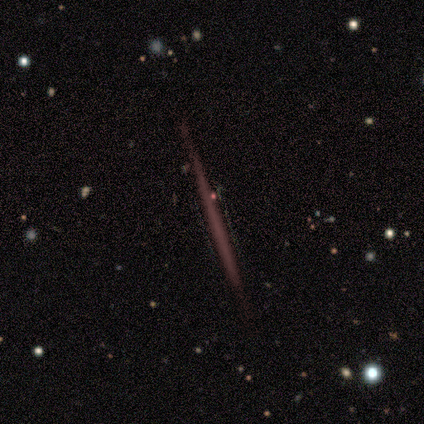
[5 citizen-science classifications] A star or artifact, not a galaxy (80%).

Vote fractions:
- Smooth or featured? star or artifact: 80% / featured or disk: 20% / smooth: 0%